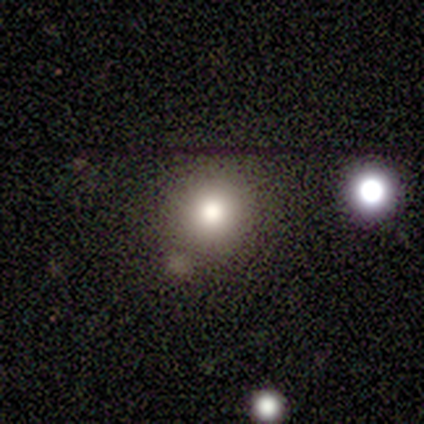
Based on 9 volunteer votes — Smooth or featured?
  - smooth: 56% *
  - featured or disk: 22%
  - star or artifact: 22%
How rounded?
  - round: 100% *
  - in between: 0%
  - cigar-shaped: 0%
Merging?
  - none: 86% *
  - major disturbance: 14%
  - minor disturbance: 0%
  - merger: 0%